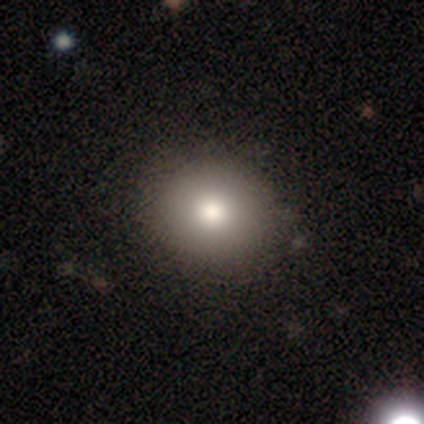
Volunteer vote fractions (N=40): Smooth or featured? smooth (80%)
How rounded? round (72%)
Merging? none (70%)